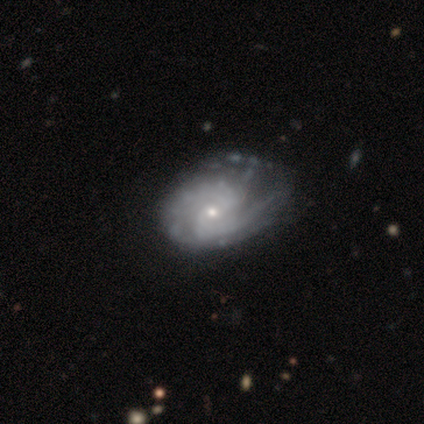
This is clearly a featured or disk galaxy (100%). It is clearly not viewed edge-on (98%). Bar: possibly no (59%). Spiral arm pattern: clearly yes (97%). Spiral arm count: marginally 2 (45%). Spiral winding: possibly medium (53%). Central bulge: likely small (77%). Merging: marginally none (25%).